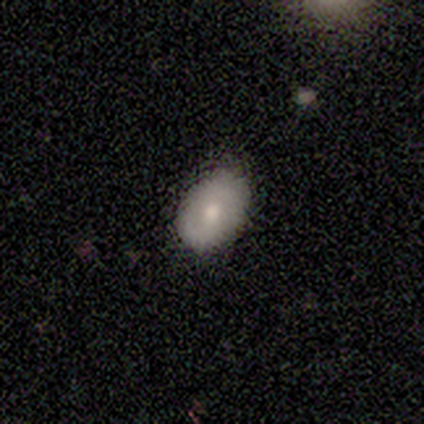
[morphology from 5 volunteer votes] smooth 80%, featured or disk 20%, star or artifact 0%. Down the decision tree: how rounded — in between (100%); merging — none (80%).